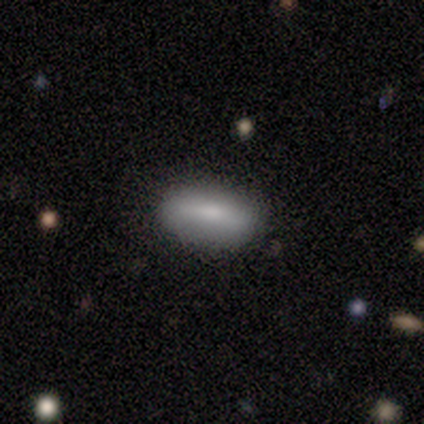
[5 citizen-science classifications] Volunteers were most divided on "merging": none: 60%, minor disturbance: 40%, major disturbance: 0%, merger: 0%. More confident: how rounded — in between (100%); smooth or featured — smooth (80%).